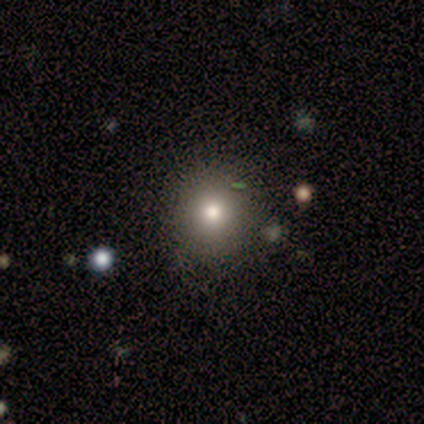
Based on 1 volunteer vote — smooth-or-featured: smooth: 100% | featured or disk: 0% | star or artifact: 0%
  how-rounded: in between: 100% | round: 0% | cigar-shaped: 0%
  merging: none: 100% | minor disturbance: 0% | major disturbance: 0% | merger: 0%